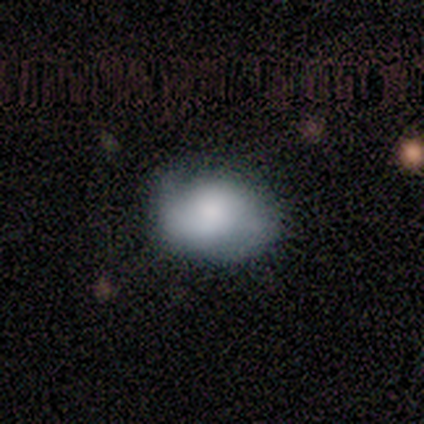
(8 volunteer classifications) Smooth or featured? 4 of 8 (50%, tied with featured or disk) said smooth. How rounded? 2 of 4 (50%, tied with in between) said round. Merging? 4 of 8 (50%, tied with minor disturbance) said none.